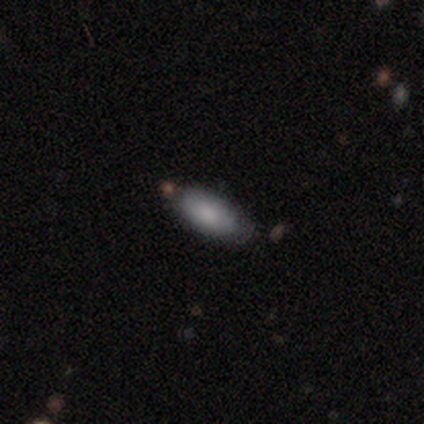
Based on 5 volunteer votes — Overall: smooth (100%). How rounded: in between (100%). Merging: none (80%).